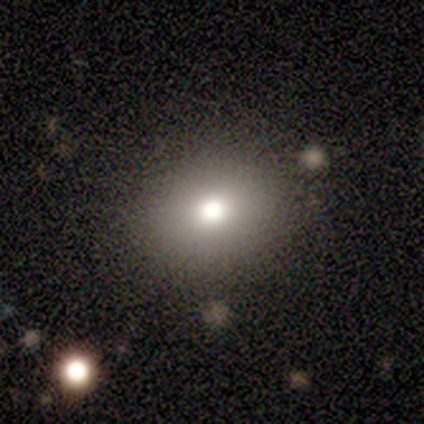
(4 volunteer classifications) smooth_or_featured: smooth (p=0.75) [alt: featured or disk p=0.25]
how_rounded: round (p=1.00)
merging: none (p=1.00)